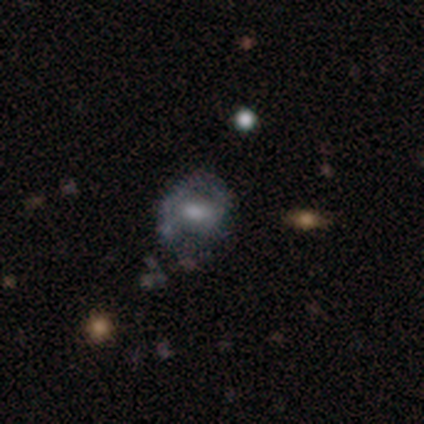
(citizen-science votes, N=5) Overall: featured or disk (80%). Edge-on disk: no (100%). Bar: no (75%). Spiral arms: no (75%). Bulge size: moderate (75%). Merging: none (50%, tied with minor disturbance).